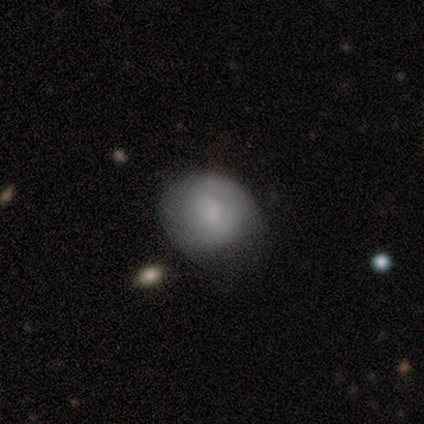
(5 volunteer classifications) smooth_or_featured: smooth (p=1.00)
how_rounded: round (p=0.80) [alt: in between p=0.20]
merging: minor disturbance (p=0.60) [alt: none p=0.40]